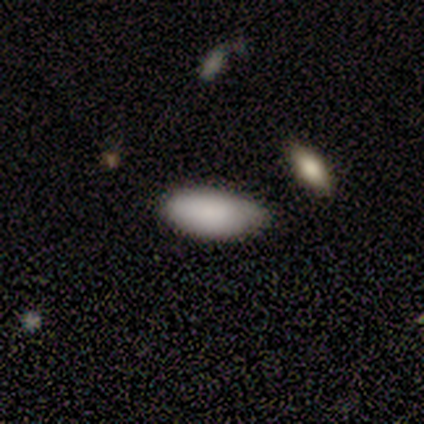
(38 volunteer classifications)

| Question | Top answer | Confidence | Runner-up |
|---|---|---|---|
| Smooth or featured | smooth | 89% | featured or disk (8%) |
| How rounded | in between | 88% | cigar-shaped (9%) |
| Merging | none | 62% | minor disturbance (35%) |